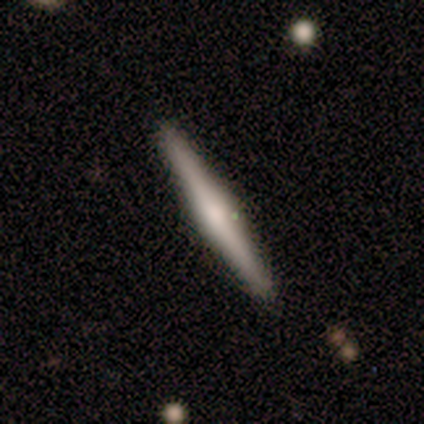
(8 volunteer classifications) A featured or disk galaxy (75%) viewed edge-on (100%) with a rounded central bulge (83%). Merging: none (88%).